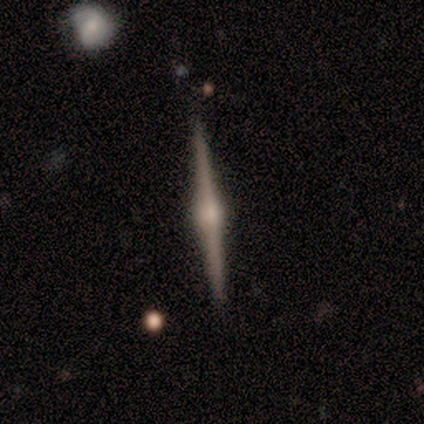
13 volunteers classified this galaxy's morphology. A featured or disk galaxy (92%) viewed edge-on (100%) with a rounded central bulge (75%). Merging: none (92%).